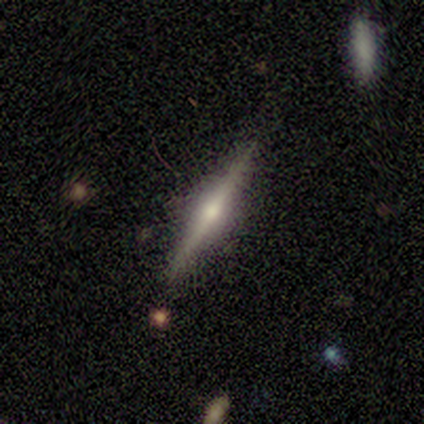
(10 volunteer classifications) smooth-or-featured: featured or disk: 80% | smooth: 20% | star or artifact: 0%
  disk-edge-on: yes: 88% | no: 12%
    edge-on-bulge: rounded: 71% | boxy: 14% | none: 14%
  merging: none: 100% | minor disturbance: 0% | major disturbance: 0% | merger: 0%